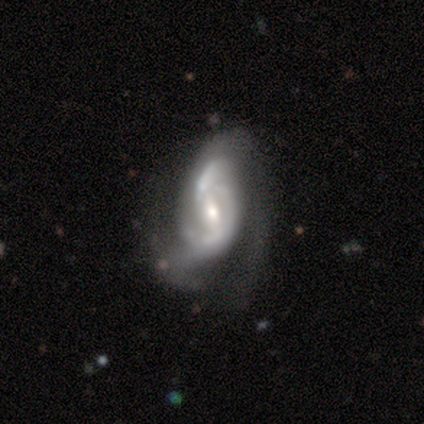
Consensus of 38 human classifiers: A featured or disk galaxy (92%) with a weak bar (43%), 2 (58%) medium (52%) spiral arms (89%) and a moderate central bulge (49%). Merging: major disturbance (32%).